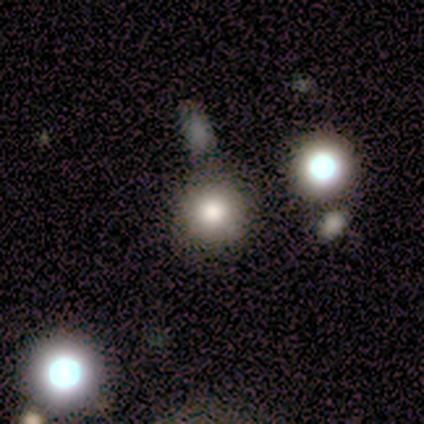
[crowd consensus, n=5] Smooth or featured: smooth — 60% (featured or disk — 40%)
How rounded: round — 67% (in between — 33%)
Merging: none — 100%